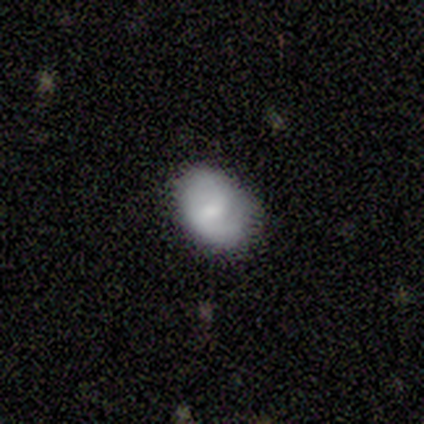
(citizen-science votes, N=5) Q: Smooth or featured?
A: featured or disk (40%); tied with: star or artifact (40%)
Q: Edge-on disk?
A: no (100%)
Q: Bar?
A: strong (50%); tied with: no (50%)
Q: Spiral arms?
A: yes (50%); tied with: no (50%)
Q: Spiral winding?
A: medium (100%)
Q: Spiral arm count?
A: can't tell (100%)
Q: Bulge size?
A: large (50%); tied with: none (50%)
Q: Merging?
A: none (100%)